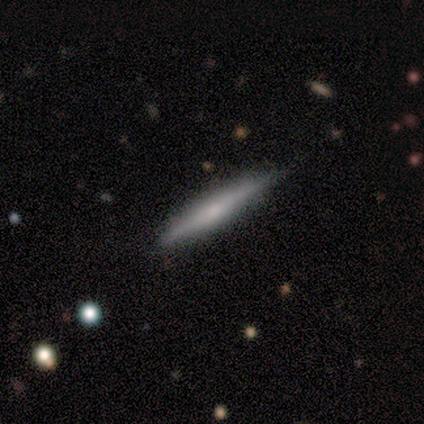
smooth 55%, featured or disk 45%, star or artifact 0%. Down the decision tree: how rounded — cigar-shaped (100%); merging — none (64%).